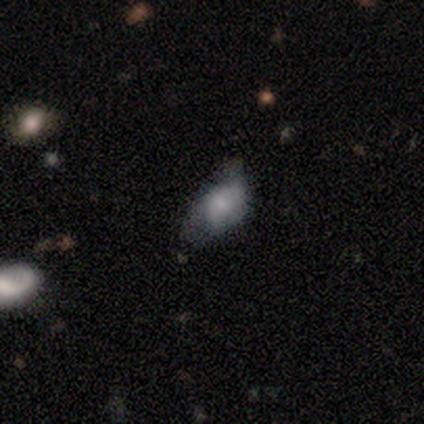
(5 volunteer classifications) A featured or disk galaxy (80%) viewed edge-on (50%, tied with no) with a rounded central bulge (100%). Merging: none (60%).